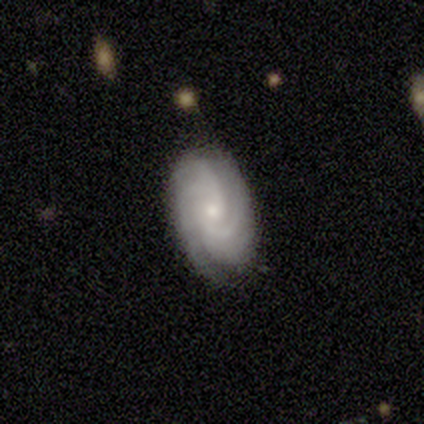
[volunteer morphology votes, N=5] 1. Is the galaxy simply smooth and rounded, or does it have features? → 100% featured or disk, 0% smooth, 0% star or artifact.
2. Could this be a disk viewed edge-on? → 100% no, 0% yes.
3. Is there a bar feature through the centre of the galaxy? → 80% no, 20% weak, 0% strong.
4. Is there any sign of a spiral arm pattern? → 100% yes, 0% no.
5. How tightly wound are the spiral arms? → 100% tight, 0% medium, 0% loose.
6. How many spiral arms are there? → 40% can't tell, 20% 2, 20% 4, 20% more than 4, 0% 1, 0% 3.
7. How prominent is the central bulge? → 60% moderate, 40% small, 0% dominant, 0% large, 0% none.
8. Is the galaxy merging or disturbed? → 60% none, 20% minor disturbance, 20% merger, 0% major disturbance.